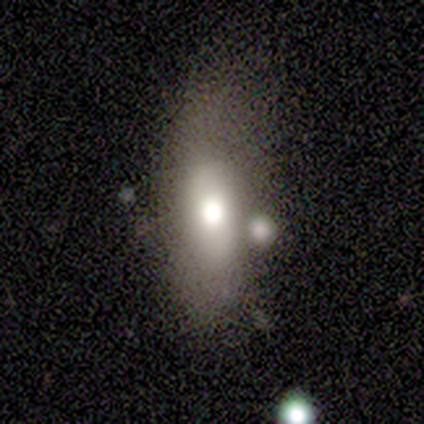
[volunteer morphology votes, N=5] Overall: smooth (100%). How rounded: in between (80%). Merging: none (60%; minor disturbance 40%).